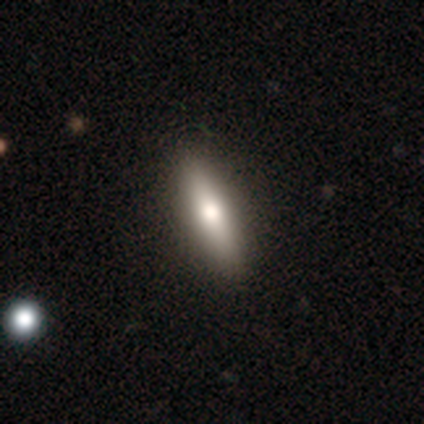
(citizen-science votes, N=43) smooth-or-featured: smooth: 74% | featured or disk: 19% | star or artifact: 7%
  how-rounded: cigar-shaped: 69% | in between: 28% | round: 3%
  merging: none: 88% | minor disturbance: 8% | major disturbance: 2% | merger: 2%